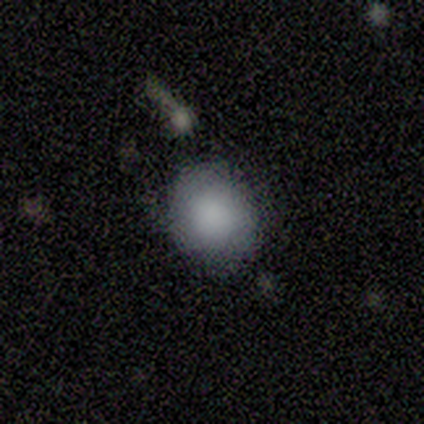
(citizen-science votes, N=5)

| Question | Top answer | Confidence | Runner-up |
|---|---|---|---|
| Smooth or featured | smooth | 60% | featured or disk (20%) |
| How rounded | round | 100% | — |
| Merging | none | 100% | — |